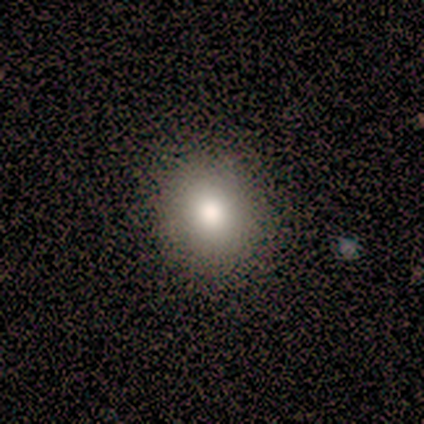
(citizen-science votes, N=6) smooth-or-featured: smooth: 50% | featured or disk: 33% | star or artifact: 17%
  how-rounded: round: 100% | in between: 0% | cigar-shaped: 0%
  merging: none: 80% | minor disturbance: 20% | major disturbance: 0% | merger: 0%